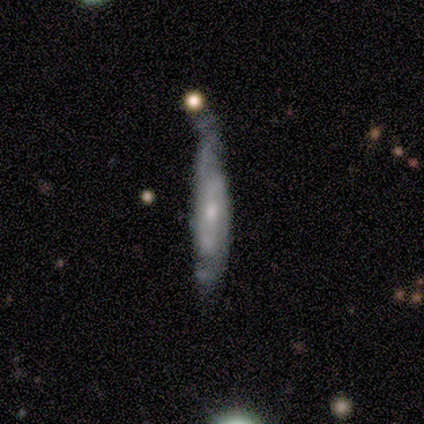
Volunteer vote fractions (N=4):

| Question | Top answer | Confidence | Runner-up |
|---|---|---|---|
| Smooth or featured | featured or disk | 75% | smooth (25%) |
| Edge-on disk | yes | 67% | no (33%) |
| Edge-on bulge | none | 50% | tied: rounded (50%) |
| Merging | minor disturbance | 50% | none (25%) |